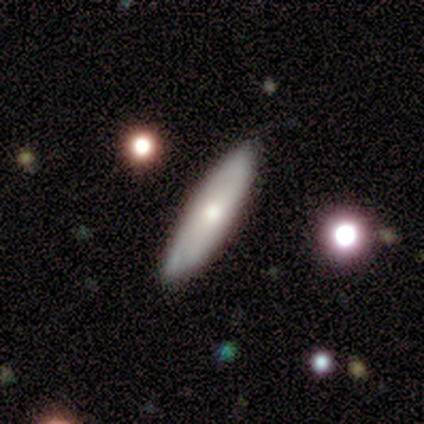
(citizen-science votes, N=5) Smooth or featured? 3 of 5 (60%) said smooth. How rounded? 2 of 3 (67%) said cigar-shaped. Merging? 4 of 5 (80%) said none.